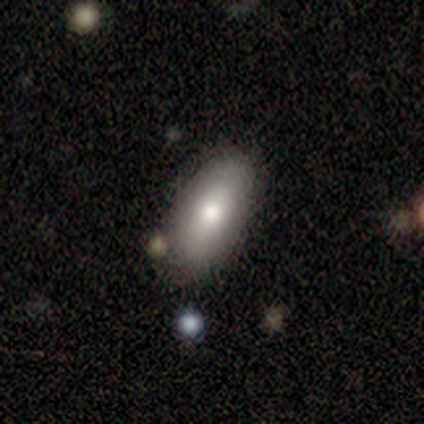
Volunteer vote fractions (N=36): Volunteers were most divided on "smooth or featured": smooth: 69%, star or artifact: 19%, featured or disk: 11%. More confident: how rounded — in between (84%); merging — none (72%).